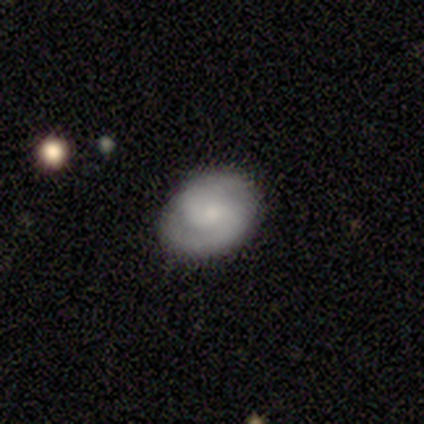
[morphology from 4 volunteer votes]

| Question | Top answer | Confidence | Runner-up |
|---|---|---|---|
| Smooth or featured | featured or disk | 100% | — |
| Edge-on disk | no | 100% | — |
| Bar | no | 75% | weak (25%) |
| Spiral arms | yes | 100% | — |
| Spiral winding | tight | 50% | tied: medium (50%) |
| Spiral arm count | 2 | 75% | 1 (25%) |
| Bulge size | small | 50% | moderate (25%) |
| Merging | none | 100% | — |